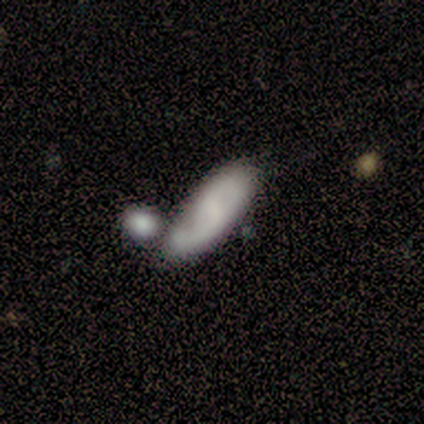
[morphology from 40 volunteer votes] smooth-or-featured: featured or disk: 65% | smooth: 30% | star or artifact: 5%
  disk-edge-on: no: 85% | yes: 15%
    bar: weak: 45% | no: 41% | strong: 14%
    has-spiral-arms: yes: 95% | no: 5%
      spiral-winding: loose: 43% | medium: 38% | tight: 19%
      spiral-arm-count: 2: 57% | 1: 24% | can't tell: 19% | 3: 0% | 4: 0% | more than 4: 0%
    bulge-size: none: 45% | small: 27% | moderate: 23% | large: 5% | dominant: 0%
  merging: merger: 39% | none: 32% | minor disturbance: 18% | major disturbance: 11%